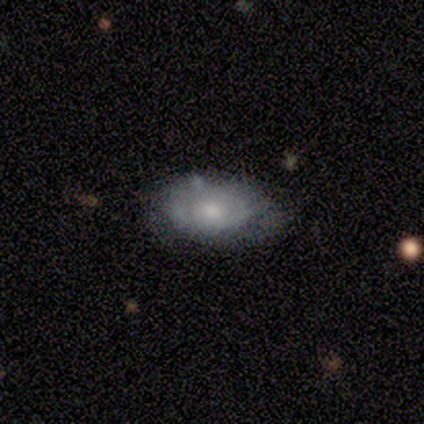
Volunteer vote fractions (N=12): Smooth or featured? 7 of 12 (58%) said smooth. How rounded? 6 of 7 (86%) said in between. Merging? 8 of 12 (67%) said none.